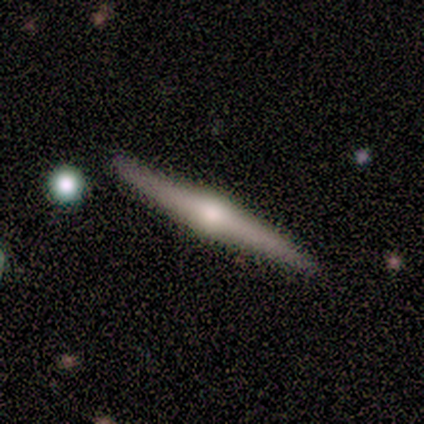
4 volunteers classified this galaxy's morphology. Smooth or featured?
  - featured or disk: 100% *
  - smooth: 0%
  - star or artifact: 0%
Edge-on disk?
  - yes: 100% *
  - no: 0%
Edge-on bulge?
  - rounded: 100% *
  - boxy: 0%
  - none: 0%
Merging?
  - none: 100% *
  - minor disturbance: 0%
  - major disturbance: 0%
  - merger: 0%